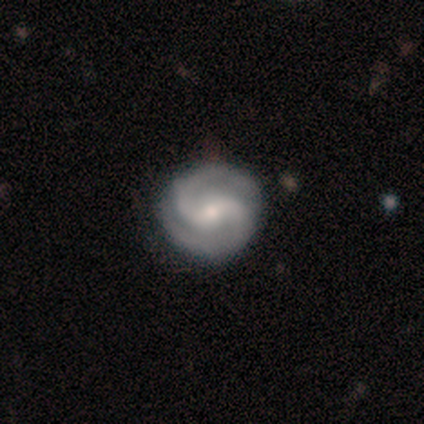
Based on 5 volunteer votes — A featured or disk galaxy (100%) with no bar (80%), 2 (100%) medium (80%) spiral arms (100%) and a small central bulge (60%).

Vote fractions:
- Smooth or featured? featured or disk: 100% / smooth: 0% / star or artifact: 0%
- Edge-on disk? no: 100% / yes: 0%
- Bar? no: 80% / weak: 20% / strong: 0%
- Spiral arms? yes: 100% / no: 0%
- Spiral winding? medium: 80% / tight: 20% / loose: 0%
- Spiral arm count? 2: 100% / 1: 0% / 3: 0% / 4: 0% / more than 4: 0% / can't tell: 0%
- Bulge size? small: 60% / large: 20% / moderate: 20% / dominant: 0% / none: 0%
- Merging? none: 80% / minor disturbance: 20% / major disturbance: 0% / merger: 0%